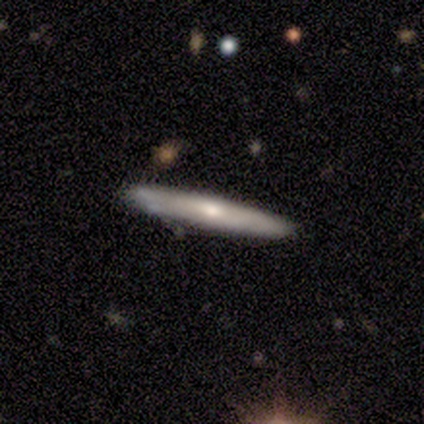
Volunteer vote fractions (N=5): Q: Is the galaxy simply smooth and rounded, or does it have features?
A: featured or disk — 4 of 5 (80%).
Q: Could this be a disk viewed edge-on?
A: yes — 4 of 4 (100%).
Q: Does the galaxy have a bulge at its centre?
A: none — 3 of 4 (75%).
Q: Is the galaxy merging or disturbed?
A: none — 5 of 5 (100%).